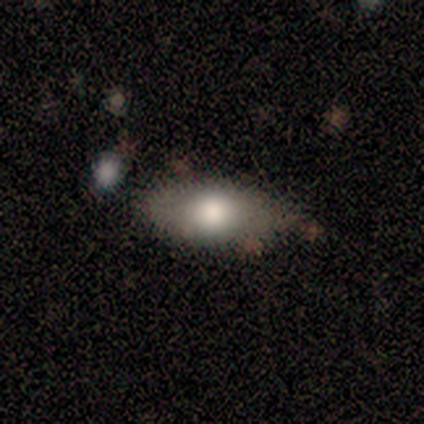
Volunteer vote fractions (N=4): Smooth or featured? 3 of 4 (75%) said smooth. How rounded? 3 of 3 (100%) said in between. Merging? 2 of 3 (67%) said minor disturbance.